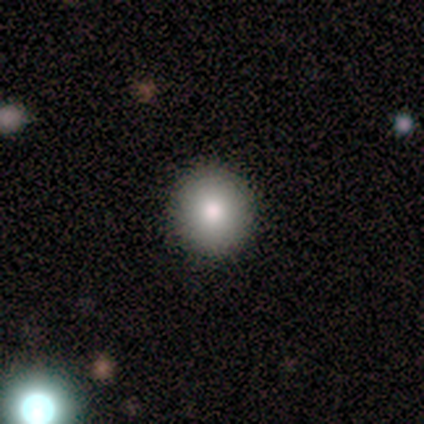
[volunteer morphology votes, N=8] This is clearly a smooth galaxy (100%). How rounded: clearly round (88%). Merging: likely none (75%).